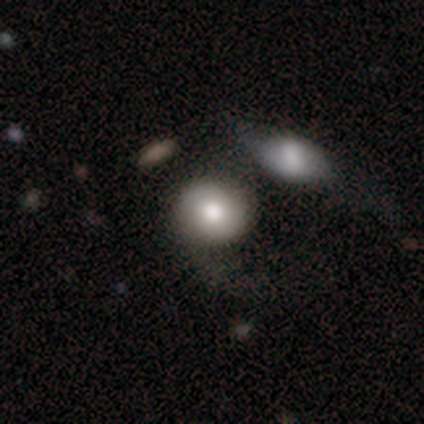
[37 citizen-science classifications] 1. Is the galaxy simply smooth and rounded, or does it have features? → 57% smooth, 38% featured or disk, 5% star or artifact.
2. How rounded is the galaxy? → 90% round, 10% in between, 0% cigar-shaped.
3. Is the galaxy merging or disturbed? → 34% merger, 23% none, 23% minor disturbance, 20% major disturbance.